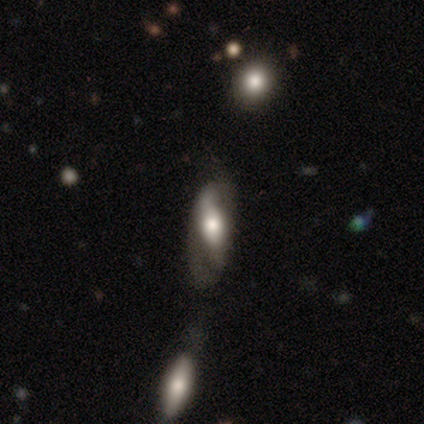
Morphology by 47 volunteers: This is possibly a smooth galaxy (49%). How rounded: possibly in between (48%). Merging: marginally none (36%).